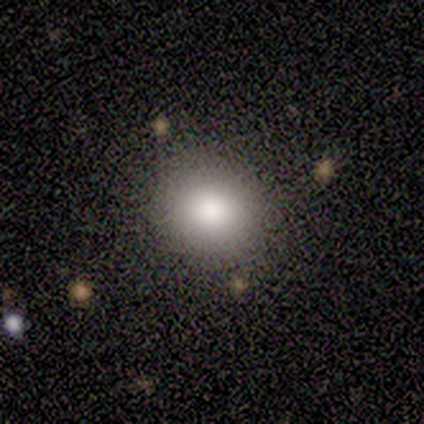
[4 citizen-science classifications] This is clearly a smooth galaxy (100%). How rounded: clearly round (100%). Merging: likely none (75%).